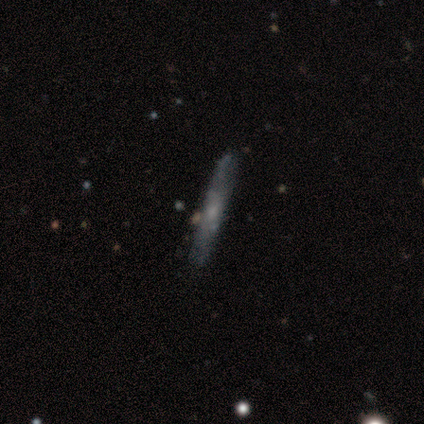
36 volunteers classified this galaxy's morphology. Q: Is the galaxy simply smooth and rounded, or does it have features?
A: featured or disk — 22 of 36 (61%).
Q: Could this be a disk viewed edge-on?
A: yes — 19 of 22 (86%).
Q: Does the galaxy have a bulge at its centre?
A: rounded — 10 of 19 (53%).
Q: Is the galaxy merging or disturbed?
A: none — 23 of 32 (72%).